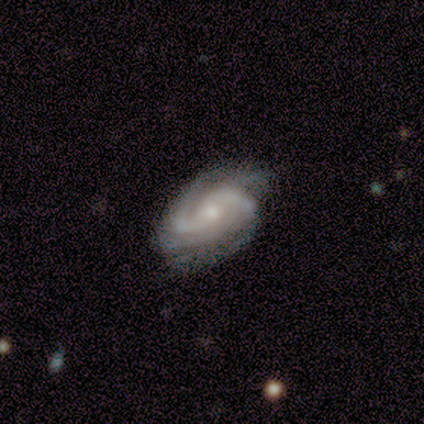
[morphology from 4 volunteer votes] smooth-or-featured: featured or disk: 100% | smooth: 0% | star or artifact: 0%
  disk-edge-on: no: 100% | yes: 0%
    bar: no: 75% | weak: 25% | strong: 0%
    has-spiral-arms: yes: 100% | no: 0%
      spiral-winding: tight: 50% (tied) | medium: 50% (tied) | loose: 0%
      spiral-arm-count: 2: 50% | 3: 25% | 4: 25% | 1: 0% | more than 4: 0% | can't tell: 0%
    bulge-size: small: 100% | dominant: 0% | large: 0% | moderate: 0% | none: 0%
  merging: none: 75% | major disturbance: 25% | minor disturbance: 0% | merger: 0%